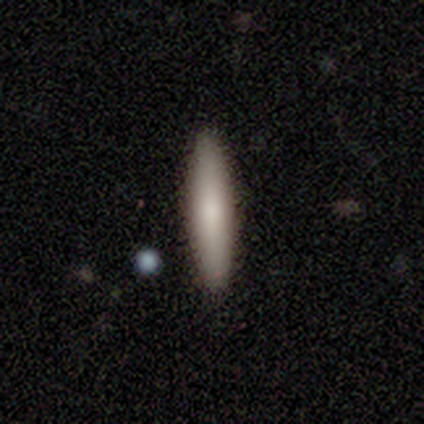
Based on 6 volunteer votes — This is clearly a smooth galaxy (83%). How rounded: likely cigar-shaped (60%). Merging: clearly none (100%).